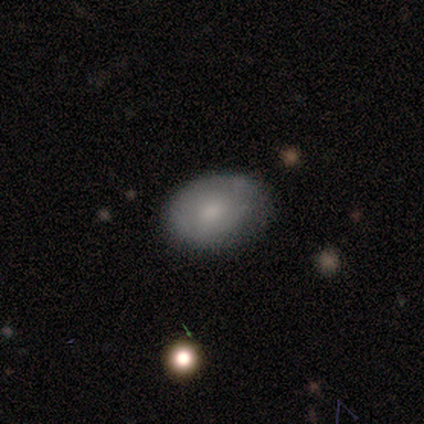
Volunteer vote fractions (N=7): Volunteers were most divided on "smooth or featured": smooth: 57%, star or artifact: 29%, featured or disk: 14%. More confident: merging — none (100%); how rounded — in between (75%).